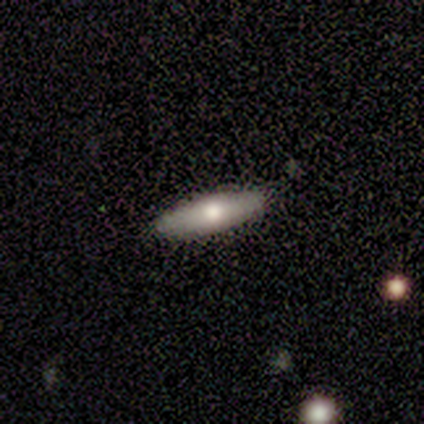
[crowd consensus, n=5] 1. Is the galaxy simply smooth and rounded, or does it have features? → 60% smooth, 40% featured or disk, 0% star or artifact.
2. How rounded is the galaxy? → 67% in between, 33% cigar-shaped, 0% round.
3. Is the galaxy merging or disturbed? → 100% none, 0% minor disturbance, 0% major disturbance, 0% merger.